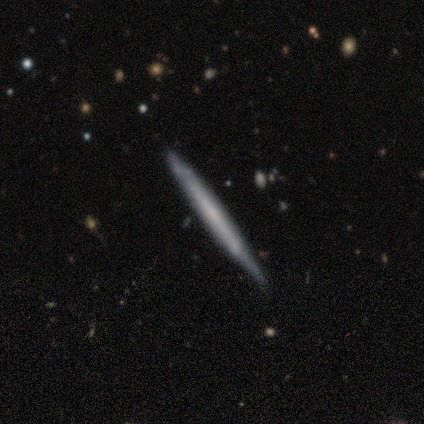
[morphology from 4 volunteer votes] Smooth or featured? smooth (50%, tied with featured or disk)
How rounded? round (50%, tied with cigar-shaped)
Merging? none (75%)